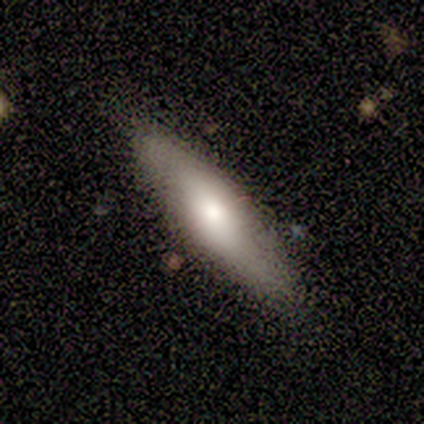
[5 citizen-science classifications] smooth_or_featured: smooth (p=1.00)
how_rounded: cigar-shaped (p=0.60) [alt: in between p=0.40]
merging: none (p=0.80) [alt: merger p=0.20]